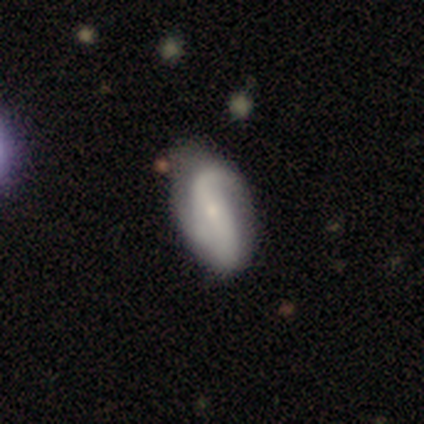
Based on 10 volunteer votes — Smooth or featured: smooth — 50% (tied with featured or disk — 50%)
How rounded: in between — 80% (cigar-shaped — 20%)
Merging: minor disturbance — 50% (none — 40%)